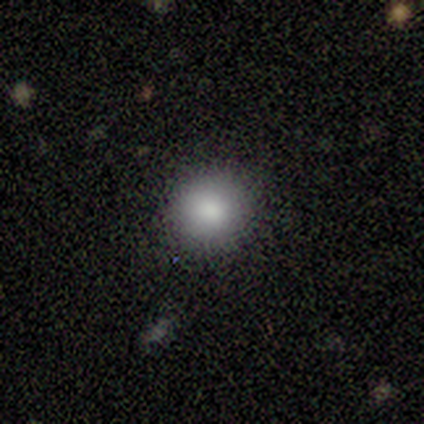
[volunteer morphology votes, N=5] A smooth galaxy with no disk features (100%) that is round (100%). Merging: none (100%).